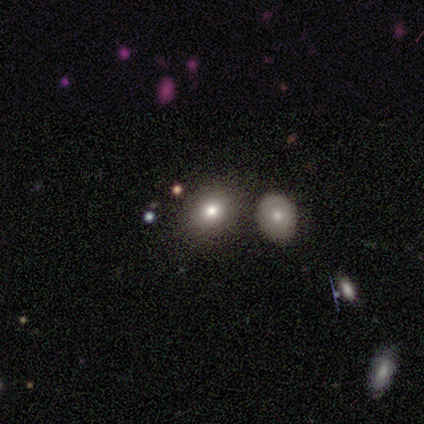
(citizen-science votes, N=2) smooth_or_featured: smooth (p=0.50) [tied with: featured or disk p=0.50]
how_rounded: round (p=1.00)
merging: none (p=1.00)